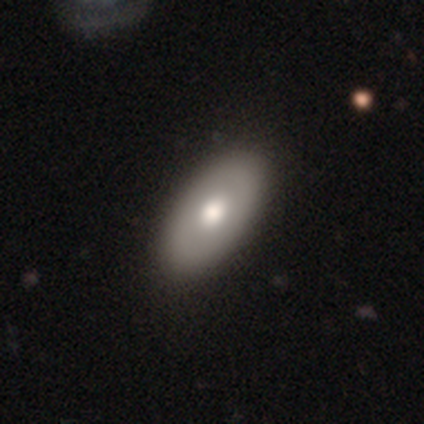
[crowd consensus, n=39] smooth_or_featured: smooth (p=0.74) [alt: featured or disk p=0.18]
how_rounded: in between (p=0.97) [alt: cigar-shaped p=0.03]
merging: none (p=0.75)